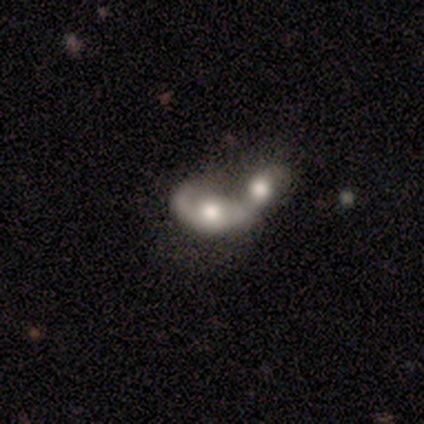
Smooth or featured?
  - smooth: 50% * (tied)
  - featured or disk: 50% * (tied)
  - star or artifact: 0%
How rounded?
  - in between: 100% *
  - round: 0%
  - cigar-shaped: 0%
Merging?
  - merger: 100% *
  - none: 0%
  - minor disturbance: 0%
  - major disturbance: 0%